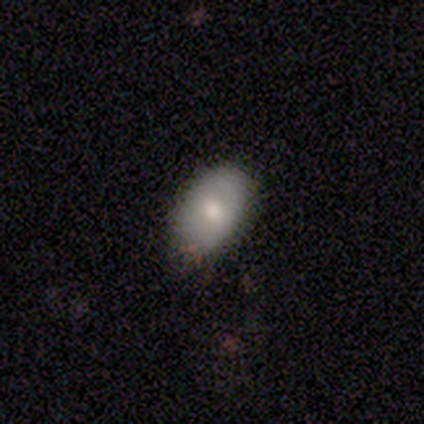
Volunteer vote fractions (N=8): A smooth galaxy with no disk features (62%) that is in between round and cigar-shaped (100%).

Vote fractions:
- Smooth or featured? smooth: 62% / featured or disk: 38% / star or artifact: 0%
- How rounded? in between: 100% / round: 0% / cigar-shaped: 0%
- Merging? none: 100% / minor disturbance: 0% / major disturbance: 0% / merger: 0%